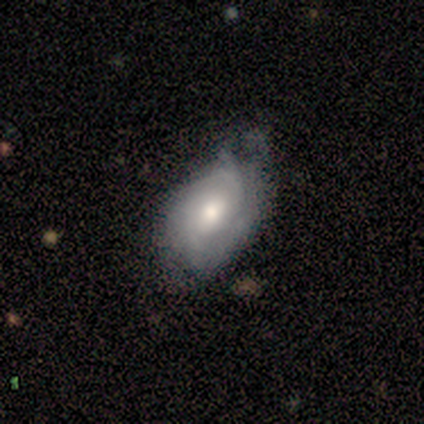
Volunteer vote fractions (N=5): Overall: featured or disk (60%; smooth 40%). Edge-on disk: no (100%). Bar: no (100%). Spiral arms: yes (100%). Spiral arm count: 1 (33%, tied with 3 and can't tell). Spiral winding: loose (67%; medium 33%). Bulge size: moderate (67%; dominant 33%). Merging: minor disturbance (60%; none 20%).